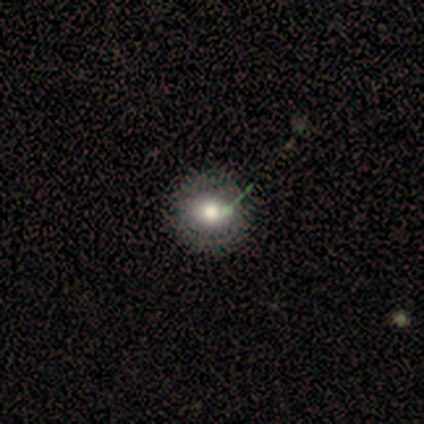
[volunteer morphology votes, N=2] Smooth or featured? 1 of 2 (50%, tied with star or artifact) said smooth. How rounded? 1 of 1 (100%) said round. Merging? 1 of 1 (100%) said none.